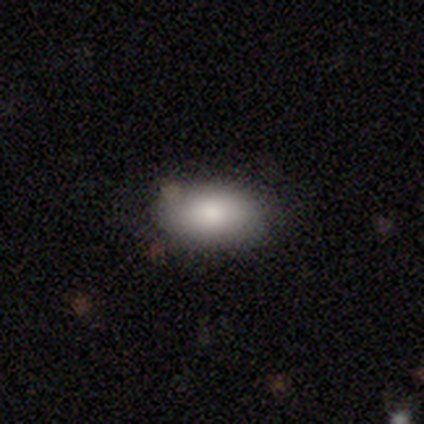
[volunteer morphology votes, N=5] Q: Smooth or featured?
A: smooth (100%)
Q: How rounded?
A: in between (100%)
Q: Merging?
A: none (100%)